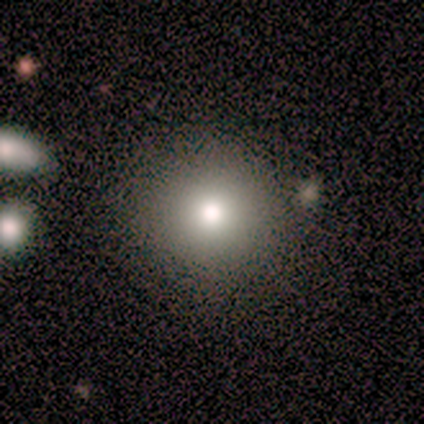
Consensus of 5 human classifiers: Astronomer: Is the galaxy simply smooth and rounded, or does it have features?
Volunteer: smooth — 80%.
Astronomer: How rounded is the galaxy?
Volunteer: round — 100%.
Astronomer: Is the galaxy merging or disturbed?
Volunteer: none — 80%.